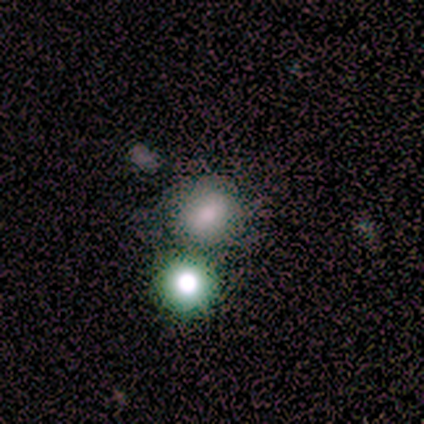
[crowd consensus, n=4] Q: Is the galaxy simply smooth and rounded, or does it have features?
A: smooth — 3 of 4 (75%).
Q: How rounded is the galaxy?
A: round — 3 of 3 (100%).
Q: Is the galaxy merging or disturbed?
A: none — 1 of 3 (33%, tied with minor disturbance and merger).